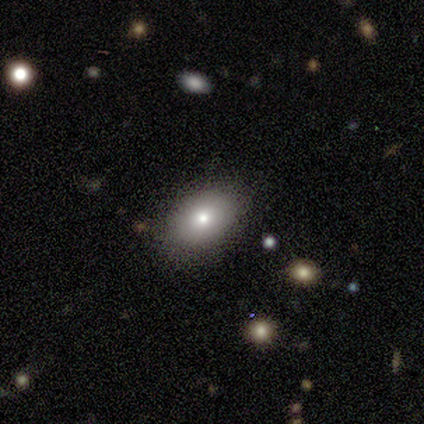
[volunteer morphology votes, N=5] Overall: smooth (100%). How rounded: in between (100%). Merging: none (100%).